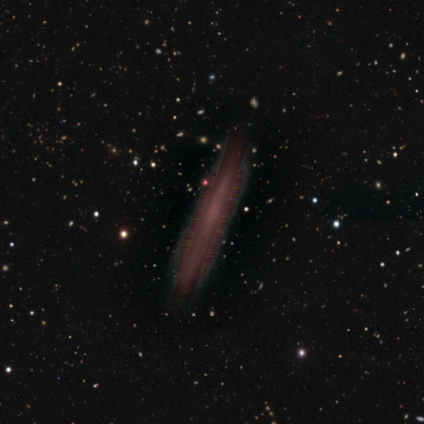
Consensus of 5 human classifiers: Smooth or featured? 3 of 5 (60%) said star or artifact.